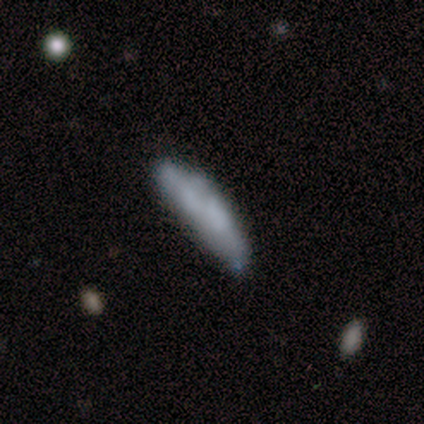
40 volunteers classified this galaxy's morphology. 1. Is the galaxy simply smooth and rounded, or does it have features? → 57% smooth, 40% featured or disk, 2% star or artifact.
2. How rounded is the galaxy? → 70% cigar-shaped, 30% in between, 0% round.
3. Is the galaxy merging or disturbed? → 46% none, 38% minor disturbance, 10% merger, 5% major disturbance.